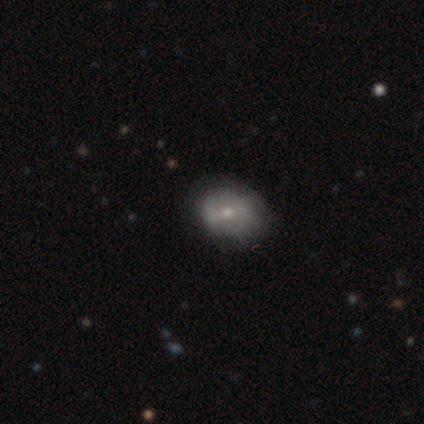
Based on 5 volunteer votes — This appears to be a featured or disk galaxy (80%) with a strong bar (33%, tied with weak and no), no spiral arms (100%) and a moderate central bulge (100%). Merging: none (80%).